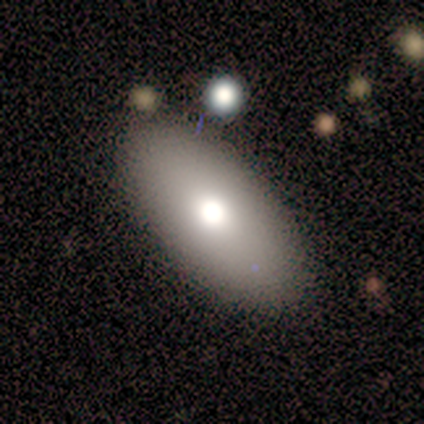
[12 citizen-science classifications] A smooth galaxy with no disk features (75%) that is in between round and cigar-shaped (100%). Merging: none (91%).